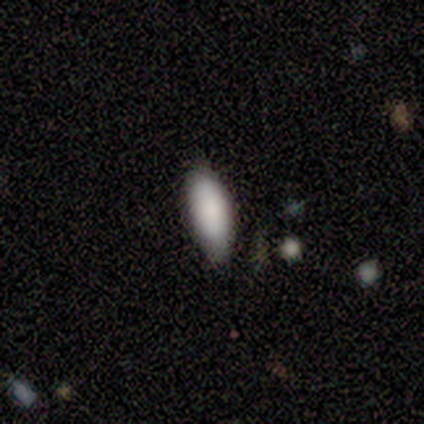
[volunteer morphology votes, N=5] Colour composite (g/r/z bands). It shows a smooth galaxy with no disk features (60%) that is in between round and cigar-shaped (67%). Merging: none (80%).